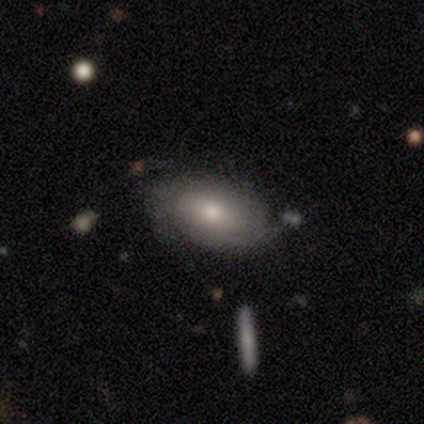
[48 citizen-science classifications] Smooth or featured? 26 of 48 (54%) said smooth. How rounded? 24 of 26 (92%) said in between. Merging? 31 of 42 (74%) said none.